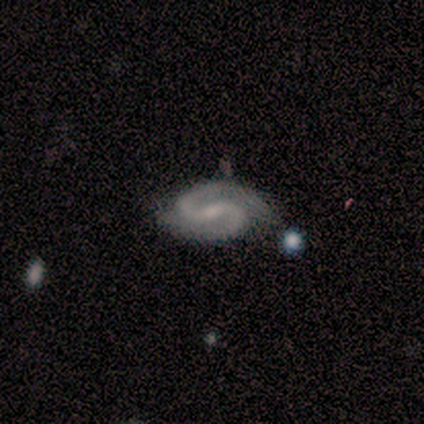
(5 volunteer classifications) featured or disk 80%, star or artifact 20%, smooth 0%. Down the decision tree: edge-on disk — no (100%); bar — weak (75%); spiral arms — yes (100%); spiral arm count — 2 (100%); spiral winding — medium (75%); bulge size — small (75%); merging — none (100%).